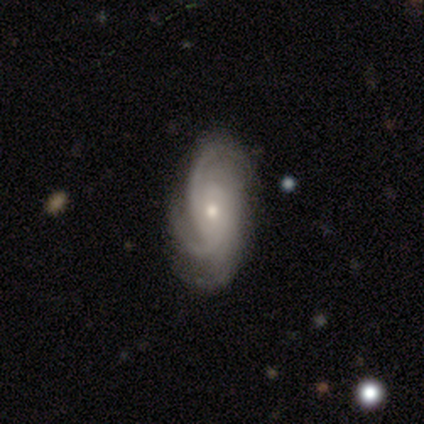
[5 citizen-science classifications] smooth_or_featured: featured or disk (p=1.00)
disk_edge_on: no (p=1.00)
bar: no (p=0.80) [alt: weak p=0.20]
has_spiral_arms: yes (p=1.00)
spiral_winding: tight (p=1.00)
spiral_arm_count: 3 (p=0.80) [alt: 2 p=0.20]
bulge_size: small (p=0.60) [alt: moderate p=0.40]
merging: none (p=0.80) [alt: minor disturbance p=0.20]